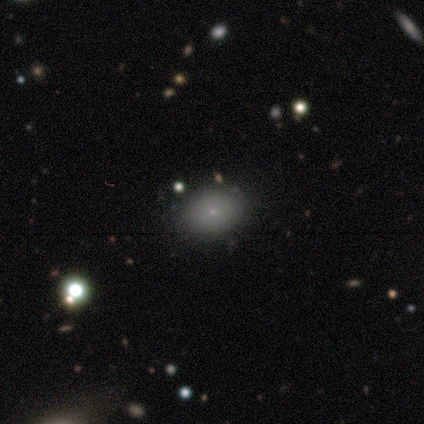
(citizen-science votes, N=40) A smooth galaxy with no disk features (82%) that is in between round and cigar-shaped (73%). Merging: none (72%).